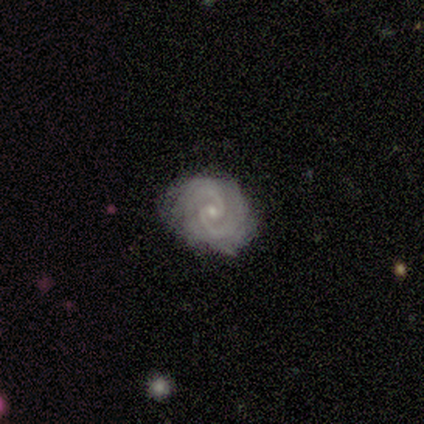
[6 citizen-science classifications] Smooth or featured? featured or disk (67%)
Edge-on disk? no (100%)
Bar? no (75%)
Spiral arms? yes (100%)
Spiral winding? tight (100%)
Spiral arm count? 2 (75%)
Bulge size? small (100%)
Merging? none (100%)